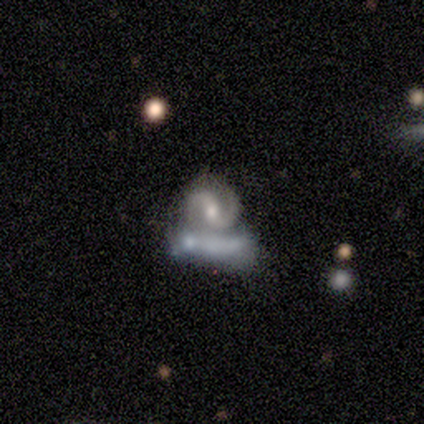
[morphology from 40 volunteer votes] This appears to be a featured or disk galaxy (95%) with a strong bar (35%), 2 (97%) medium (57%) spiral arms (100%) and a moderate central bulge (68%). Merging: none (49%).